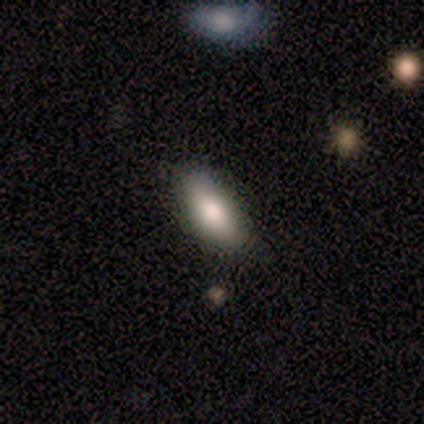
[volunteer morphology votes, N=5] type=smooth (80%); roundness=in between (75%); merging=none (80%).